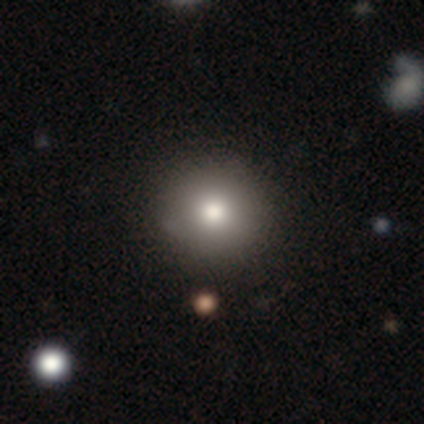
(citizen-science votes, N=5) This is likely a smooth galaxy (60%). How rounded: clearly round (100%). Merging: clearly none (80%).